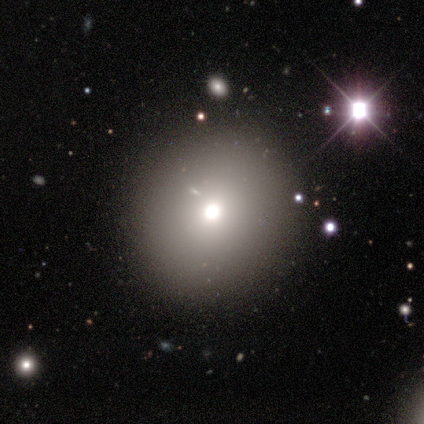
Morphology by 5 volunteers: smooth-or-featured: smooth: 100% | featured or disk: 0% | star or artifact: 0%
  how-rounded: round: 100% | in between: 0% | cigar-shaped: 0%
  merging: none: 100% | minor disturbance: 0% | major disturbance: 0% | merger: 0%